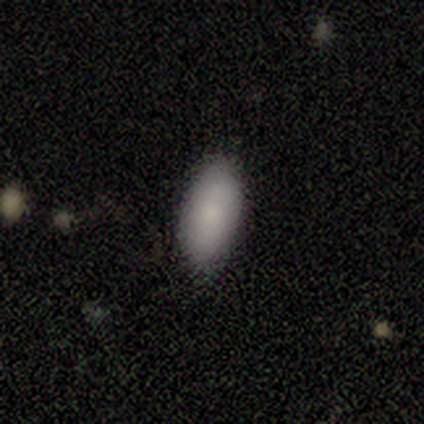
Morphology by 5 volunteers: type=smooth (100%); roundness=in between (80%); merging=none (80%).